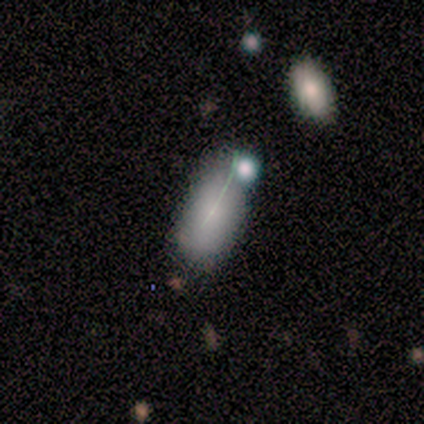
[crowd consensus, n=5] A featured or disk galaxy (60%) with a weak bar (67%), no spiral arms (67%) and a moderate central bulge (33%, tied with small and none).

Vote fractions:
- Smooth or featured? featured or disk: 60% / smooth: 20% / star or artifact: 20%
- Edge-on disk? no: 100% / yes: 0%
- Bar? weak: 67% / no: 33% / strong: 0%
- Spiral arms? no: 67% / yes: 33%
- Bulge size? moderate: 33% (tied) / small: 33% (tied) / none: 33% (tied) / dominant: 0% / large: 0%
- Merging? major disturbance: 50% / none: 25% / minor disturbance: 25% / merger: 0%